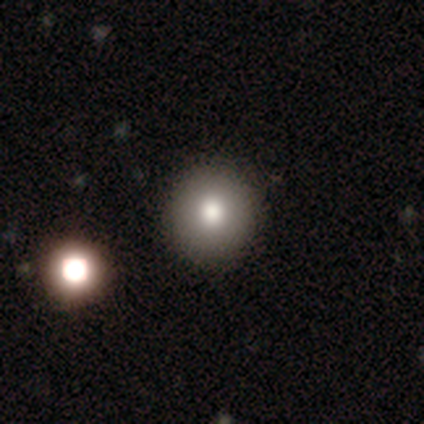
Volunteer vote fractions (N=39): Smooth or featured? 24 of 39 (62%) said smooth. How rounded? 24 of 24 (100%) said round. Merging? 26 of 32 (81%) said none.